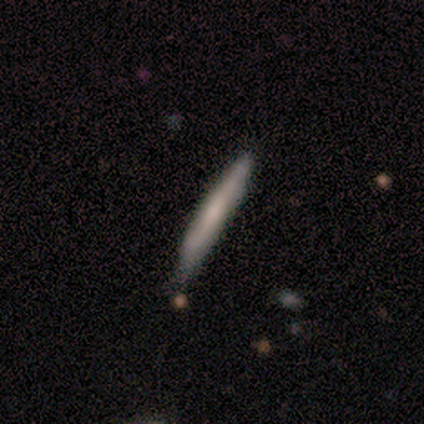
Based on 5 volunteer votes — A smooth galaxy with no disk features (80%) that is cigar-shaped (100%).

Vote fractions:
- Smooth or featured? smooth: 80% / featured or disk: 20% / star or artifact: 0%
- How rounded? cigar-shaped: 100% / round: 0% / in between: 0%
- Merging? none: 80% / minor disturbance: 20% / major disturbance: 0% / merger: 0%